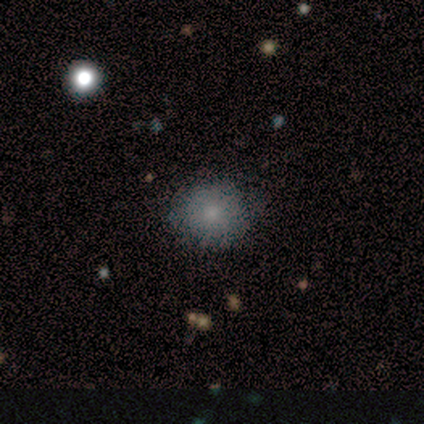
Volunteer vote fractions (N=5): This is clearly a smooth galaxy (100%). How rounded: clearly round (100%). Merging: clearly none (80%).